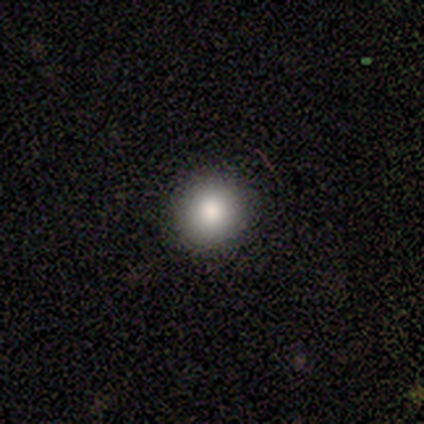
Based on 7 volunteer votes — Smooth or featured?
  - smooth: 100% *
  - featured or disk: 0%
  - star or artifact: 0%
How rounded?
  - round: 100% *
  - in between: 0%
  - cigar-shaped: 0%
Merging?
  - none: 100% *
  - minor disturbance: 0%
  - major disturbance: 0%
  - merger: 0%